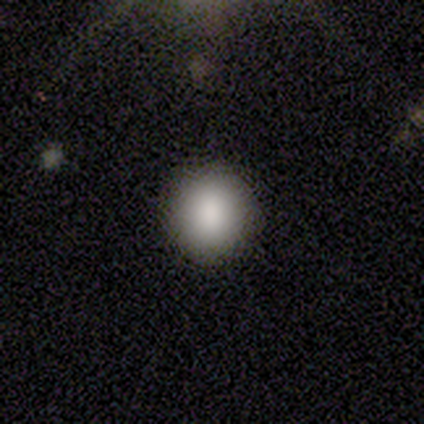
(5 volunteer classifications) This is clearly a smooth galaxy (80%). How rounded: likely round (75%). Merging: clearly none (100%).